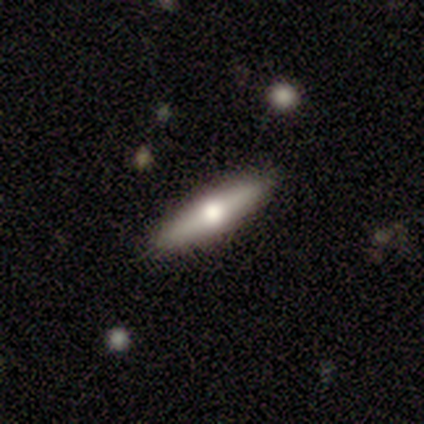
Morphology: type=smooth (67%); roundness=cigar-shaped (100%); merging=none (100%).